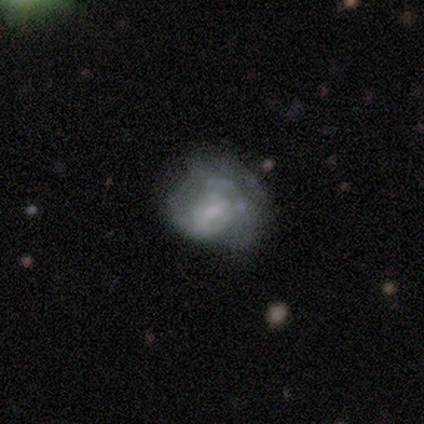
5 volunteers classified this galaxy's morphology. Smooth or featured?
  - smooth: 60% *
  - featured or disk: 40%
  - star or artifact: 0%
How rounded?
  - in between: 67% *
  - round: 33%
  - cigar-shaped: 0%
Merging?
  - minor disturbance: 60% *
  - none: 40%
  - major disturbance: 0%
  - merger: 0%